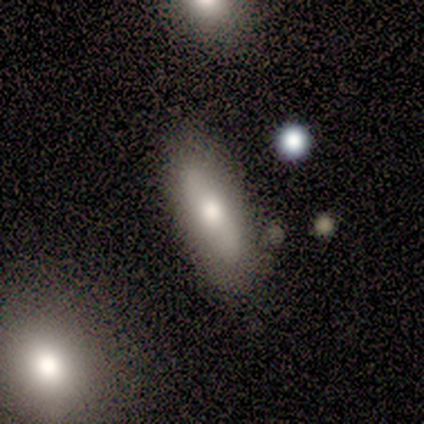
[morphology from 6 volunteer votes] This appears to be a smooth galaxy with no disk features (83%) that is in between round and cigar-shaped (60%). Merging: none (67%).